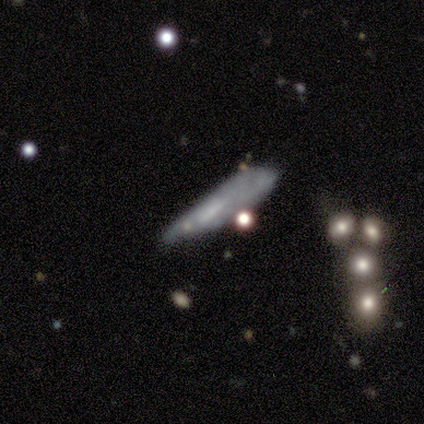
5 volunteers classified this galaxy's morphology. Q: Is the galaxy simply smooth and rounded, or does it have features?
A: smooth — 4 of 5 (80%).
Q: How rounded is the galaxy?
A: cigar-shaped — 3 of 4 (75%).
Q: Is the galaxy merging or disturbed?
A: none — 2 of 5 (40%, tied with minor disturbance).